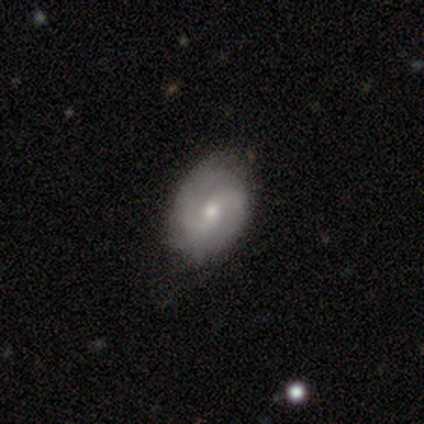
smooth-or-featured: featured or disk: 78% | smooth: 22% | star or artifact: 0%
  disk-edge-on: no: 100% | yes: 0%
    bar: no: 52% | weak: 35% | strong: 13%
    has-spiral-arms: yes: 94% | no: 6%
      spiral-winding: medium: 52% | loose: 31% | tight: 17%
      spiral-arm-count: 2: 90% | can't tell: 10% | 1: 0% | 3: 0% | 4: 0% | more than 4: 0%
    bulge-size: moderate: 68% | small: 26% | large: 3% | none: 3% | dominant: 0%
  merging: none: 57% | minor disturbance: 8% | major disturbance: 2% | merger: 2%